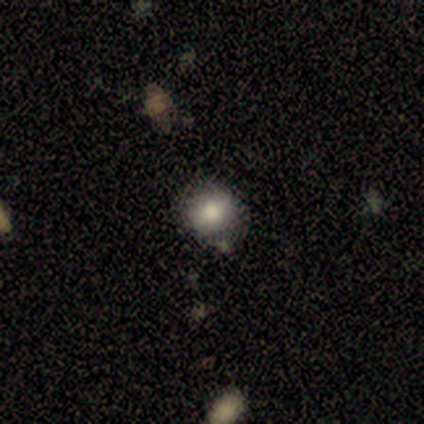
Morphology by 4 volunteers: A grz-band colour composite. It shows a smooth galaxy with no disk features (50%, tied with star or artifact) that is round (50%, tied with in between). Merging: none (50%, tied with minor disturbance).